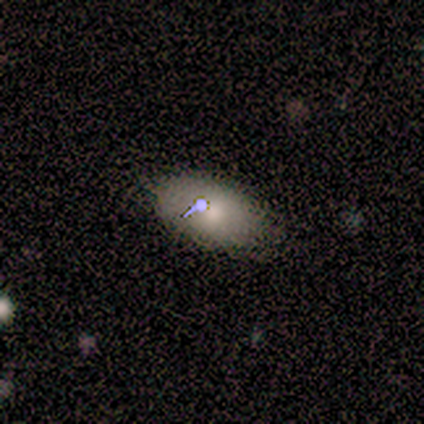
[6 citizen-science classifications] smooth-or-featured: smooth: 50% | star or artifact: 33% | featured or disk: 17%
  how-rounded: in between: 100% | round: 0% | cigar-shaped: 0%
  merging: none: 75% | major disturbance: 25% | minor disturbance: 0% | merger: 0%